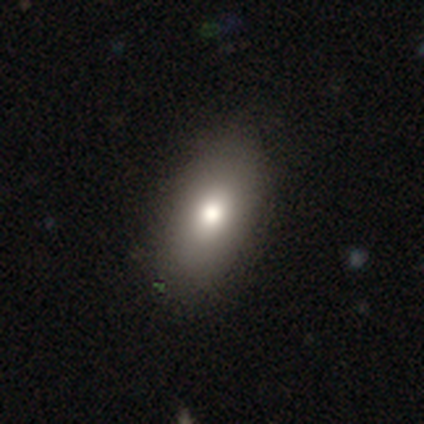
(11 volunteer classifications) smooth 55%, featured or disk 27%, star or artifact 18%. Down the decision tree: how rounded — in between (100%); merging — none (78%).